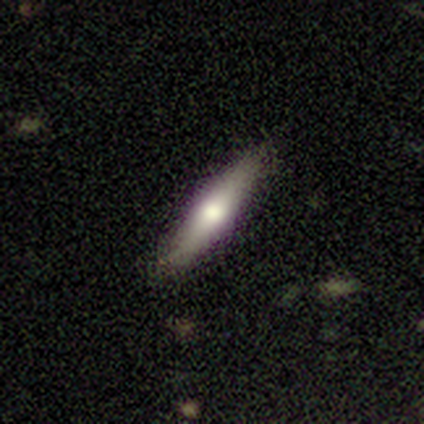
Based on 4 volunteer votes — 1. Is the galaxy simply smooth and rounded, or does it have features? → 75% smooth, 25% featured or disk, 0% star or artifact.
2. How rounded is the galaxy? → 67% cigar-shaped, 33% in between, 0% round.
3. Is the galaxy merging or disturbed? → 50% none, 25% minor disturbance, 25% major disturbance, 0% merger.